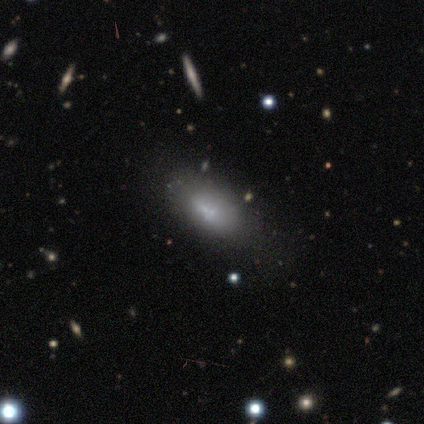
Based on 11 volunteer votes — Smooth or featured? smooth (64%)
How rounded? in between (100%)
Merging? none (50%)